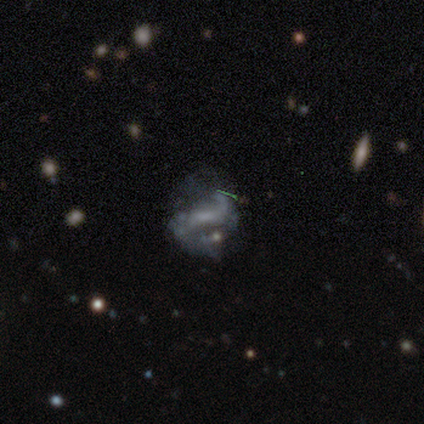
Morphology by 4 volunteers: A featured or disk galaxy (75%) with a weak bar (67%), 2 (100%) loose (67%) spiral arms (100%) and a small central bulge (100%).

Vote fractions:
- Smooth or featured? featured or disk: 75% / star or artifact: 25% / smooth: 0%
- Edge-on disk? no: 100% / yes: 0%
- Bar? weak: 67% / no: 33% / strong: 0%
- Spiral arms? yes: 100% / no: 0%
- Spiral winding? loose: 67% / medium: 33% / tight: 0%
- Spiral arm count? 2: 100% / 1: 0% / 3: 0% / 4: 0% / more than 4: 0% / can't tell: 0%
- Bulge size? small: 100% / dominant: 0% / large: 0% / moderate: 0% / none: 0%
- Merging? none: 100% / minor disturbance: 0% / major disturbance: 0% / merger: 0%